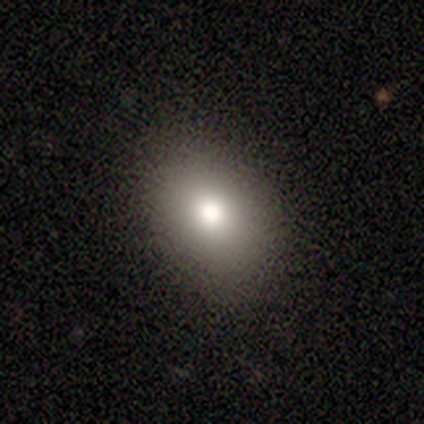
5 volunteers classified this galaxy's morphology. Volunteers were most divided on "how rounded": in between: 75%, round: 25%, cigar-shaped: 0%. More confident: merging — none (100%); smooth or featured — smooth (80%).